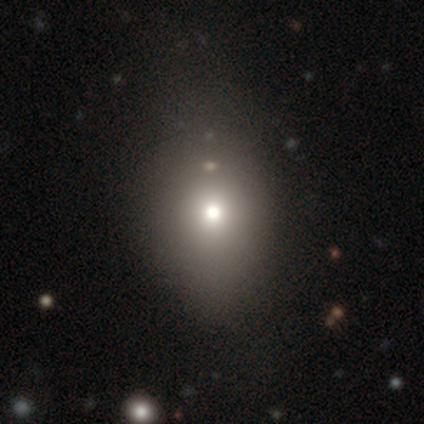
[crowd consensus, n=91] This appears to be a smooth galaxy with no disk features (70%) that is in between round and cigar-shaped (56%). Merging: none (69%).